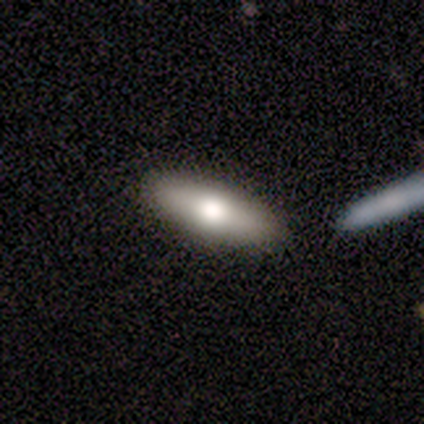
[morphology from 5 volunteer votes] featured or disk 60%, smooth 40%, star or artifact 0%. Down the decision tree: edge-on disk — yes (67%); edge-on bulge — rounded (100%); merging — none (100%).